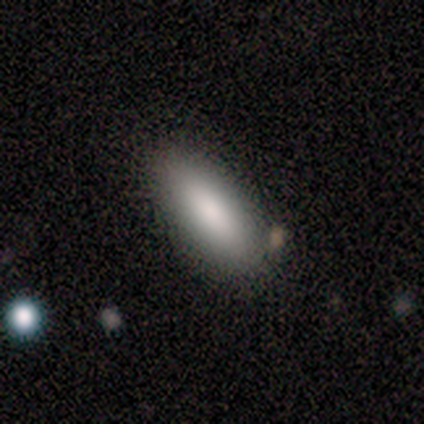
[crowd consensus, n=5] This appears to be a smooth galaxy with no disk features (100%) that is in between round and cigar-shaped (60%). Merging: none (100%).